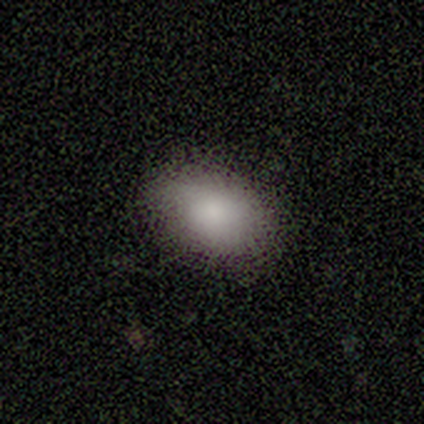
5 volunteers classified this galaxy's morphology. Overall: smooth (100%). How rounded: in between (100%). Merging: none (80%).